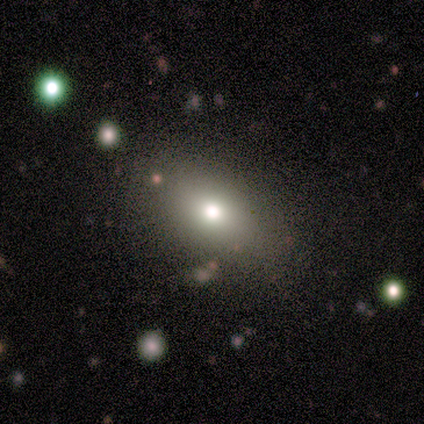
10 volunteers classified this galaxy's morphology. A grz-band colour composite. It shows a smooth galaxy with no disk features (90%) that is in between round and cigar-shaped (67%). Merging: none (90%).